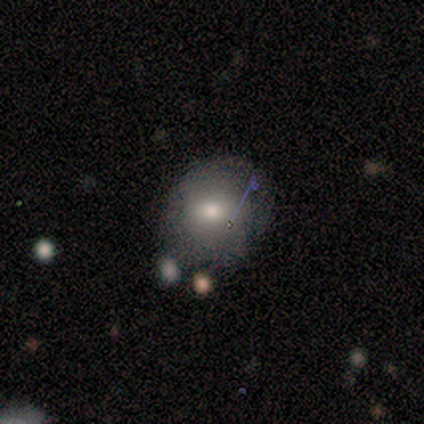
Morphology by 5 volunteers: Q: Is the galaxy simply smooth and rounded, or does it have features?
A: smooth — 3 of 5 (60%).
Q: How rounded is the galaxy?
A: in between — 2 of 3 (67%).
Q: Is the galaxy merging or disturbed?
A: minor disturbance — 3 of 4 (75%).